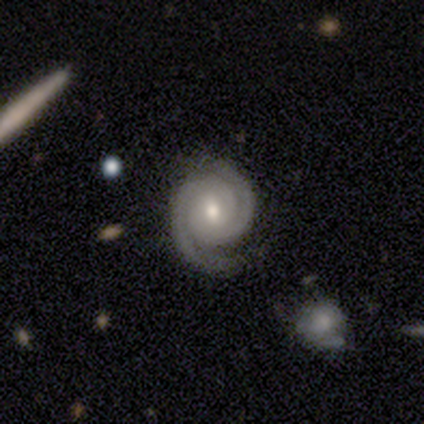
Morphology: type=featured or disk (100%); edge-on=no (100%); bar=weak (80%); spiral arms=yes (100%); winding=tight (60%); arm count=2 (100%); bulge=moderate (60%); merging=none (100%).